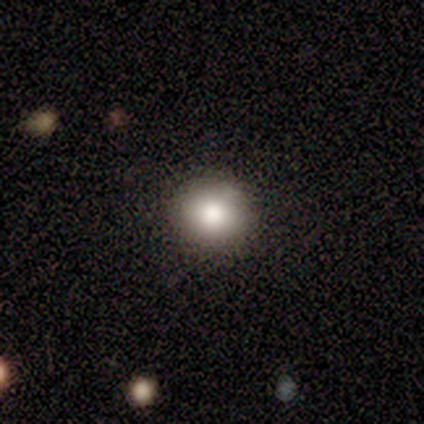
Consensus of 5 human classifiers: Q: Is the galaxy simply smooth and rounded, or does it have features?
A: smooth — 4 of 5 (80%).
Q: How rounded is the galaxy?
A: round — 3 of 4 (75%).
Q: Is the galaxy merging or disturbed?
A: none — 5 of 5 (100%).